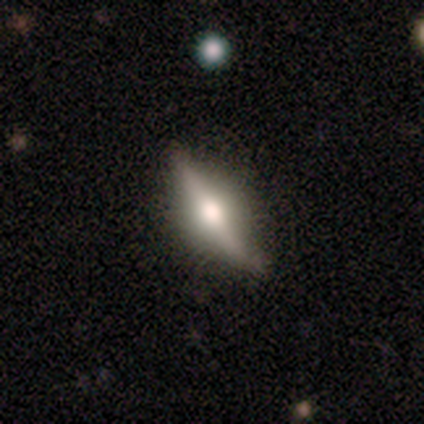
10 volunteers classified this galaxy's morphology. A featured or disk galaxy (70%) viewed edge-on (100%) with a rounded central bulge (100%). Merging: none (60%).